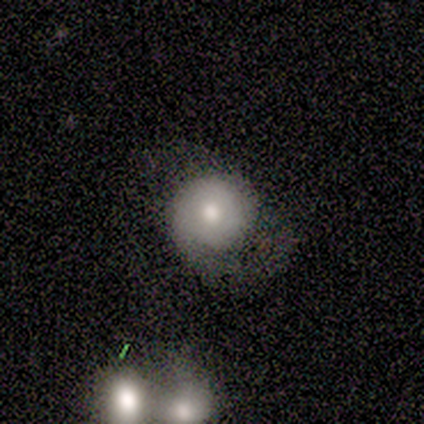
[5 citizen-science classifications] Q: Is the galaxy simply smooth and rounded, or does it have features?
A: smooth — 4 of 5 (80%).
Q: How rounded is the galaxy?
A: round — 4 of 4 (100%).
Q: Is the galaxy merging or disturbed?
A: minor disturbance — 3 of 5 (60%).